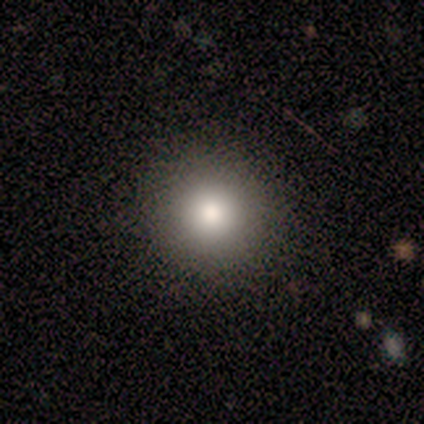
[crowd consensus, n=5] Smooth or featured: featured or disk — 40% (tied with star or artifact — 40%)
Edge-on disk: no — 100%
Bar: no — 100%
Spiral arms: no — 100%
Bulge size: large — 50% (tied with moderate — 50%)
Merging: none — 100%